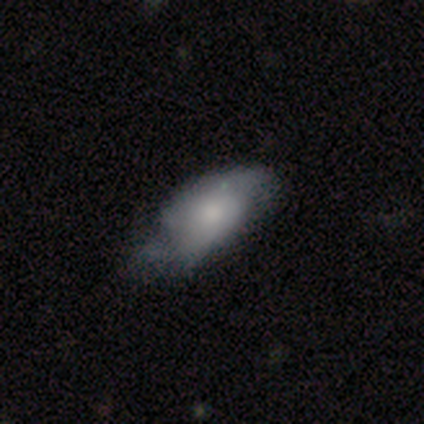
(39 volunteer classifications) This appears to be a smooth galaxy with no disk features (54%) that is in between round and cigar-shaped (100%). Merging: none (33%, tied with minor disturbance).